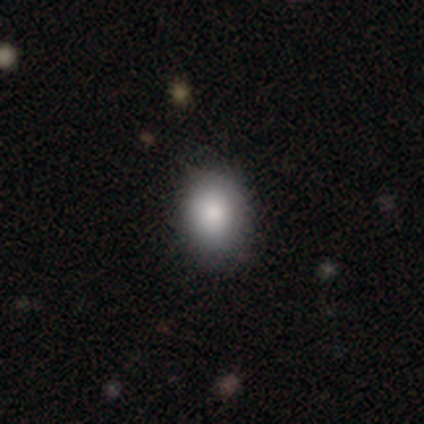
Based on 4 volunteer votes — Volunteers were most divided on "merging": none: 75%, minor disturbance: 25%, major disturbance: 0%, merger: 0%. More confident: smooth or featured — smooth (100%); how rounded — in between (100%).